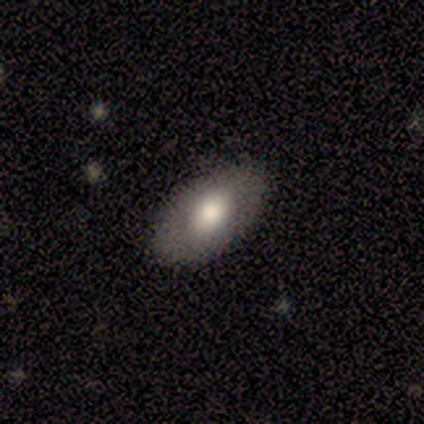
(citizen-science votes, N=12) This appears to be a smooth galaxy with no disk features (67%) that is in between round and cigar-shaped (100%). Merging: none (91%).